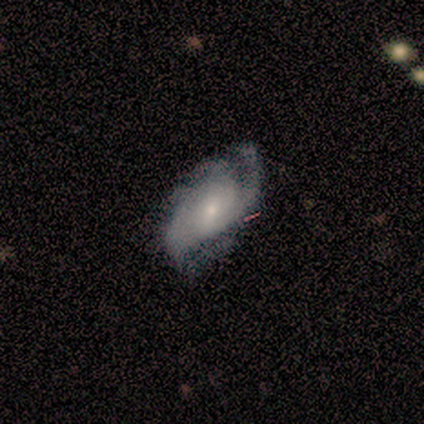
Volunteers were most divided on "spiral arm count": 2: 50%, 1: 25%, can't tell: 25%, 3: 0%, 4: 0%, more than 4: 0%. More confident: edge-on disk — no (100%); spiral arms — yes (100%); smooth or featured — featured or disk (80%); bar — no (75%); spiral winding — tight (75%); bulge size — small (75%); merging — none (60%).